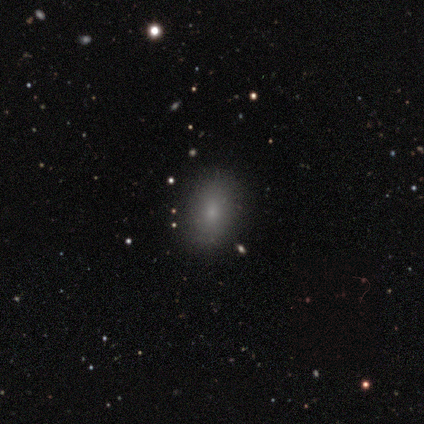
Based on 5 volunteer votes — Morphology: type=smooth (100%); roundness=in between (80%); merging=none (100%).